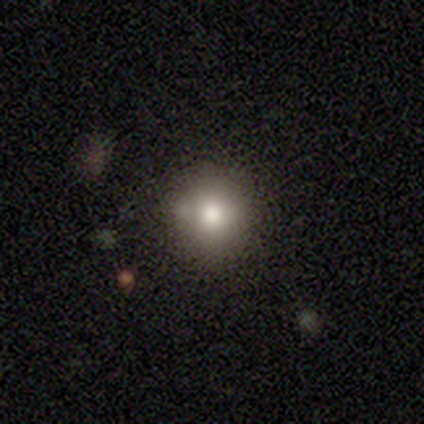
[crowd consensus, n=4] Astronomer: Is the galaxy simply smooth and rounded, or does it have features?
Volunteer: smooth — 75%.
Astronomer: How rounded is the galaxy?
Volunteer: round — 67%.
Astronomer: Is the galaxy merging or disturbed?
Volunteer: none — 75%.